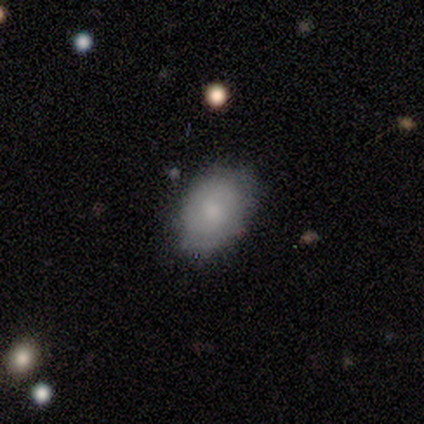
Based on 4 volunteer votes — smooth 50%, featured or disk 25%, star or artifact 25%. Down the decision tree: how rounded — round (50%, tied with in between); merging — minor disturbance (67%).